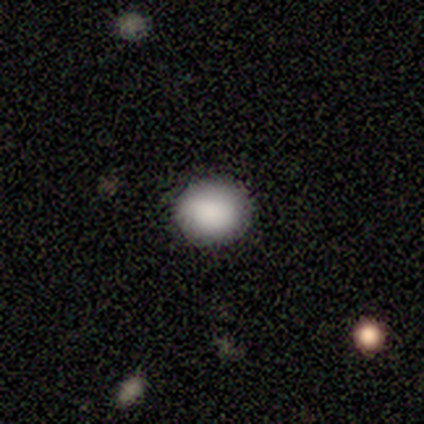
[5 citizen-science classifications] Smooth or featured?
  - smooth: 100% *
  - featured or disk: 0%
  - star or artifact: 0%
How rounded?
  - round: 100% *
  - in between: 0%
  - cigar-shaped: 0%
Merging?
  - none: 100% *
  - minor disturbance: 0%
  - major disturbance: 0%
  - merger: 0%